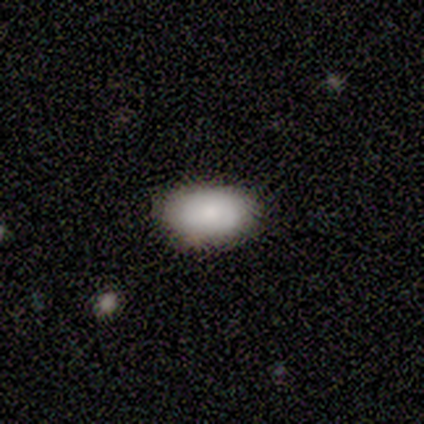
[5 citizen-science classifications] Morphology: type=smooth (60%); roundness=in between (100%); merging=none (100%).